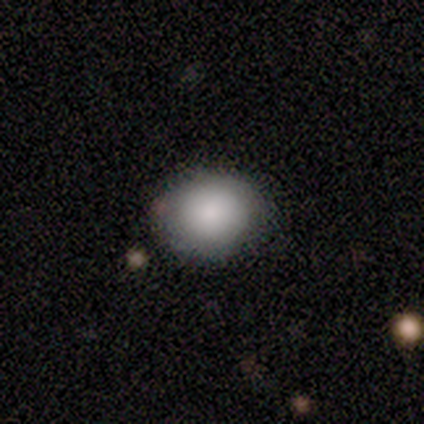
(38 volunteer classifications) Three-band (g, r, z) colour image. It shows a smooth galaxy with no disk features (79%) that is round (57%). Merging: none (75%).